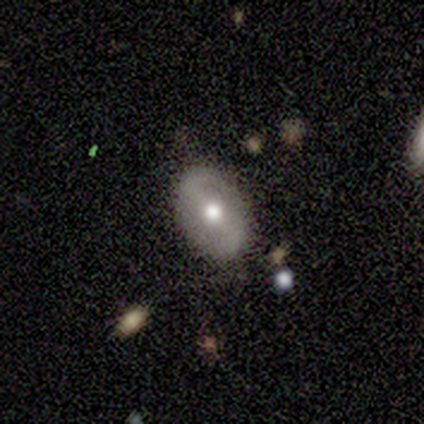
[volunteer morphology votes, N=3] A smooth galaxy with no disk features (67%) that is in between round and cigar-shaped (100%).

Vote fractions:
- Smooth or featured? smooth: 67% / featured or disk: 33% / star or artifact: 0%
- How rounded? in between: 100% / round: 0% / cigar-shaped: 0%
- Merging? none: 67% / minor disturbance: 33% / major disturbance: 0% / merger: 0%